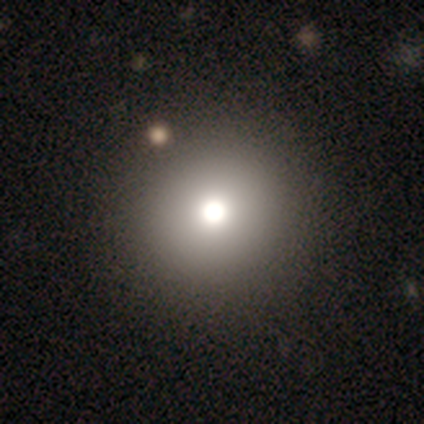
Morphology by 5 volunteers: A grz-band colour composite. It shows a smooth galaxy with no disk features (60%) that is round (100%). Merging: none (100%).